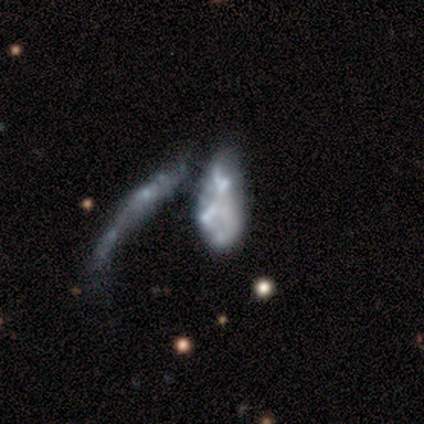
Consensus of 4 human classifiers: smooth-or-featured: featured or disk: 50% | smooth: 25% | star or artifact: 25%
  disk-edge-on: no: 100% | yes: 0%
    bar: no: 100% | strong: 0% | weak: 0%
    has-spiral-arms: no: 100% | yes: 0%
    bulge-size: moderate: 50% (tied) | none: 50% (tied) | dominant: 0% | large: 0% | small: 0%
  merging: merger: 100% | none: 0% | minor disturbance: 0% | major disturbance: 0%